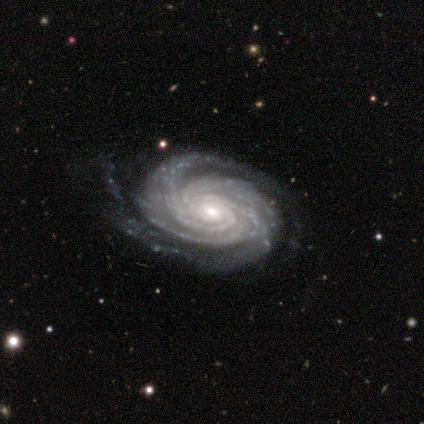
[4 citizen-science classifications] Smooth or featured? featured or disk (100%)
Edge-on disk? no (100%)
Bar? no (75%)
Spiral arms? yes (100%)
Spiral winding? tight (50%, tied with medium)
Spiral arm count? 2 (25%, tied with 3, 4 and can't tell)
Bulge size? small (75%)
Merging? none (50%, tied with minor disturbance)